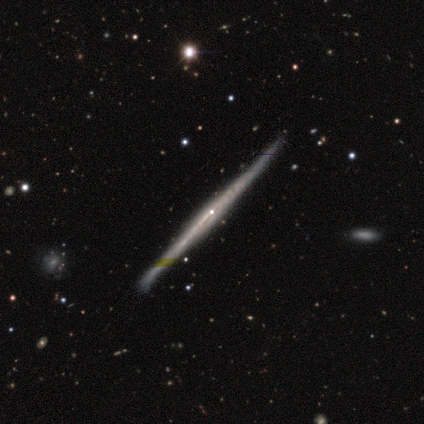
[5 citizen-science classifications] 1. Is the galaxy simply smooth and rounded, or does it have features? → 100% featured or disk, 0% smooth, 0% star or artifact.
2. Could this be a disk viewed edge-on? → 100% yes, 0% no.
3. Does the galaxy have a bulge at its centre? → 80% none, 20% rounded, 0% boxy.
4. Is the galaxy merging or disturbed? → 80% none, 20% minor disturbance, 0% major disturbance, 0% merger.